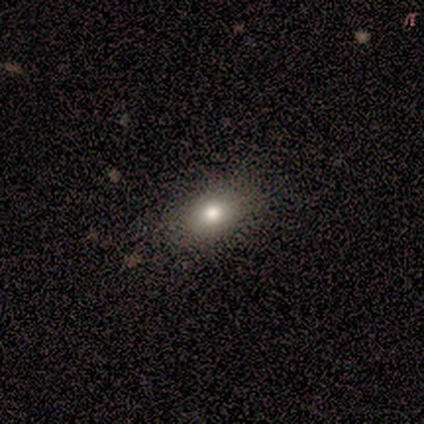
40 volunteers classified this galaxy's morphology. This is likely a smooth galaxy (78%). How rounded: likely in between (74%). Merging: clearly none (97%).